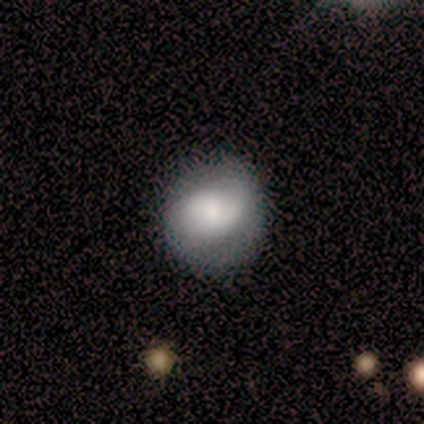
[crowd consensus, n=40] Morphology: type=smooth (60%); roundness=round (83%); merging=none (72%).